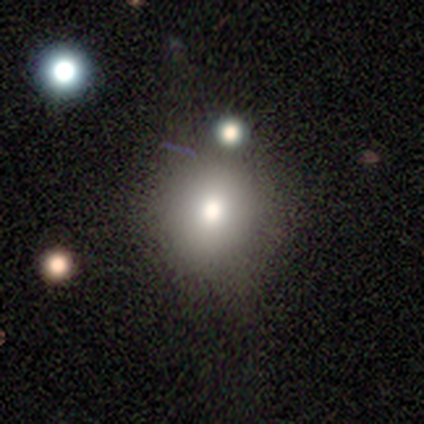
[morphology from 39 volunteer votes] A smooth galaxy with no disk features (79%) that is round (58%). Merging: none (54%).